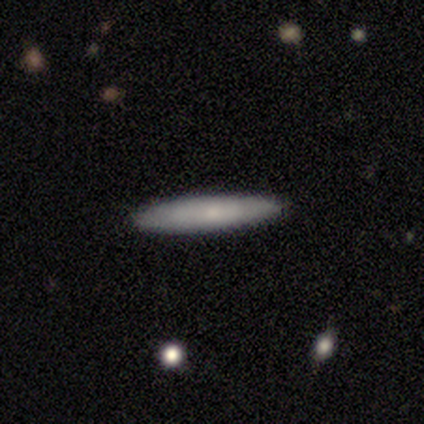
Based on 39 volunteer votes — A smooth galaxy with no disk features (56%) that is cigar-shaped (100%). Merging: none (88%).